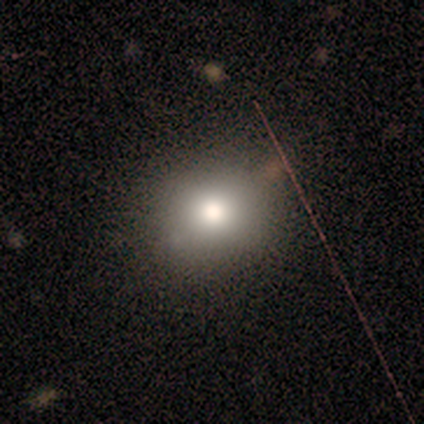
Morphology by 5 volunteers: Q: Smooth or featured?
A: smooth (60%); runner-up: featured or disk (20%)
Q: How rounded?
A: round (67%); runner-up: in between (33%)
Q: Merging?
A: none (100%)